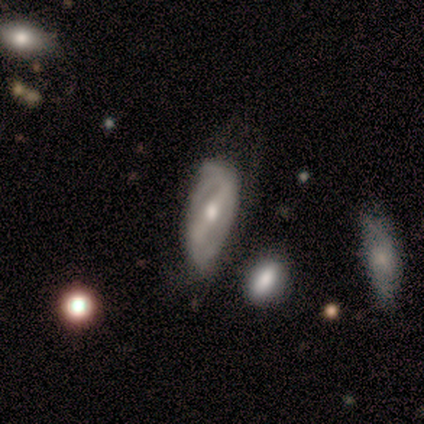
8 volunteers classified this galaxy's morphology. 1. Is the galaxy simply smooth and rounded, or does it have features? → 75% featured or disk, 25% smooth, 0% star or artifact.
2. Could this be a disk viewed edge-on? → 83% no, 17% yes.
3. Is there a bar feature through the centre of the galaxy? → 80% strong, 20% weak, 0% no.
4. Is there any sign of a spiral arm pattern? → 80% yes, 20% no.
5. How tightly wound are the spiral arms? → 75% medium, 25% loose, 0% tight.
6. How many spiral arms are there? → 100% 2, 0% 1, 0% 3, 0% 4, 0% more than 4, 0% can't tell.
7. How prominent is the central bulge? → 80% moderate, 20% large, 0% dominant, 0% small, 0% none.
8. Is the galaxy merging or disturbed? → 38% none, 25% minor disturbance, 25% major disturbance, 12% merger.